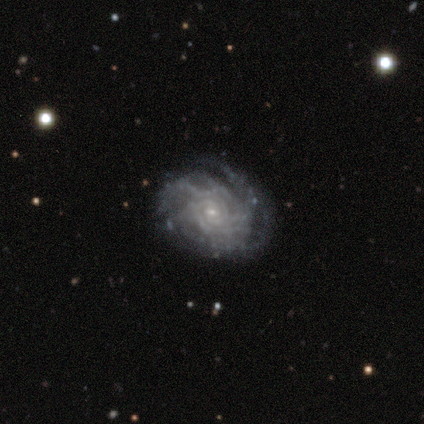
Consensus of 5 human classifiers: featured or disk 100%, smooth 0%, star or artifact 0%. Down the decision tree: edge-on disk — no (80%); bar — weak (50%, tied with no); spiral arms — yes (100%); spiral arm count — 2 (25%, tied with 4, more than 4 and can't tell); spiral winding — tight (50%, tied with medium); bulge size — small (100%); merging — none (80%).